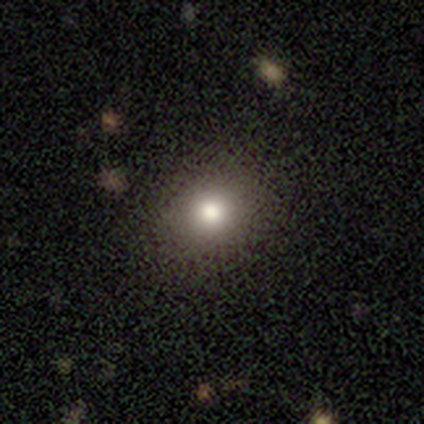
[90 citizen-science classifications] This is likely a smooth galaxy (74%). How rounded: likely round (70%). Merging: likely none (80%).